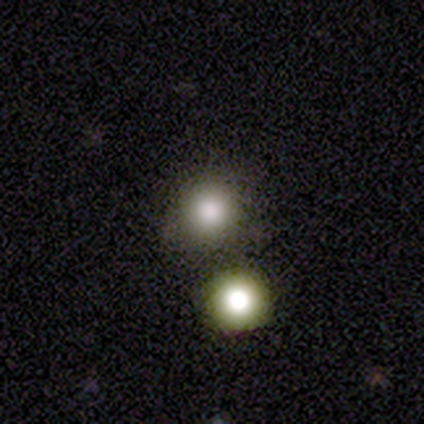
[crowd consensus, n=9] A smooth galaxy with no disk features (89%) that is round (88%). Merging: none (75%).